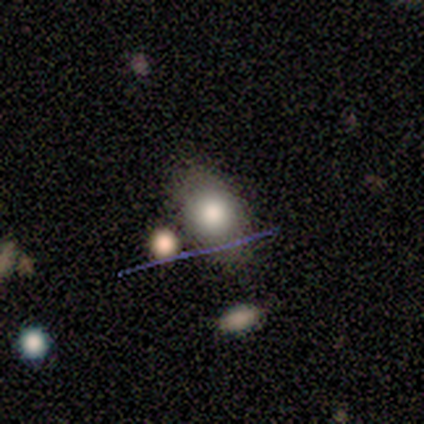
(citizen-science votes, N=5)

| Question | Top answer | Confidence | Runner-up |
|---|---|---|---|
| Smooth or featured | smooth | 60% | featured or disk (20%) |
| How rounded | round | 67% | in between (33%) |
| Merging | none | 75% | major disturbance (25%) |